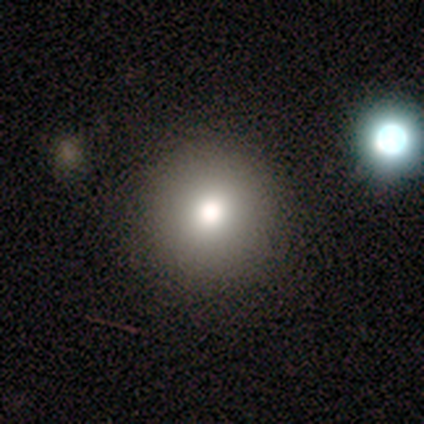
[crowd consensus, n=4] Smooth or featured?
  - smooth: 75% *
  - star or artifact: 25%
  - featured or disk: 0%
How rounded?
  - round: 100% *
  - in between: 0%
  - cigar-shaped: 0%
Merging?
  - none: 100% *
  - minor disturbance: 0%
  - major disturbance: 0%
  - merger: 0%